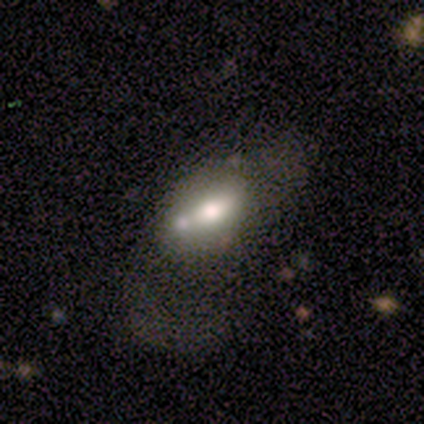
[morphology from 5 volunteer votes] This is clearly a smooth galaxy (100%). How rounded: clearly in between (100%). Merging: marginally none (40%, tied with merger).